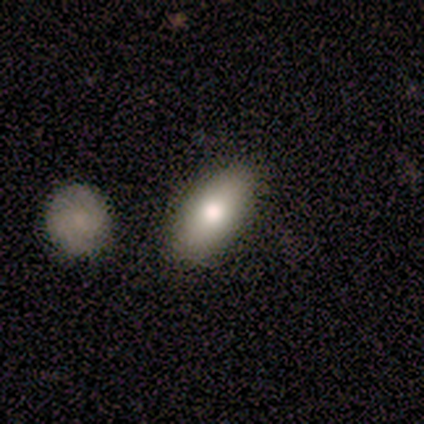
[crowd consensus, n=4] Smooth or featured?
  - smooth: 100% *
  - featured or disk: 0%
  - star or artifact: 0%
How rounded?
  - in between: 100% *
  - round: 0%
  - cigar-shaped: 0%
Merging?
  - none: 100% *
  - minor disturbance: 0%
  - major disturbance: 0%
  - merger: 0%